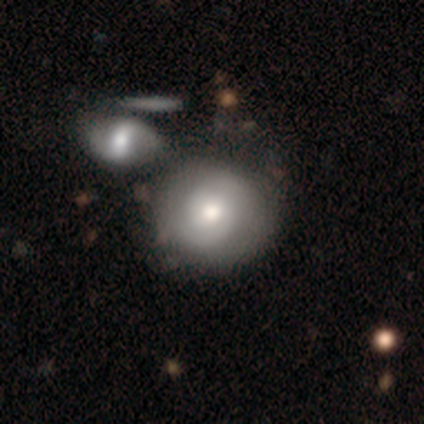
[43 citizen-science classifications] Smooth or featured: featured or disk — 53% (smooth — 40%)
Edge-on disk: no — 96% (yes — 4%)
Bar: no — 68% (weak — 32%)
Spiral arms: yes — 100%
Spiral winding: tight — 64% (medium — 23%)
Spiral arm count: 2 — 86% (can't tell — 14%)
Bulge size: moderate — 64% (large — 23%)
Merging: none — 38% (merger — 32%)